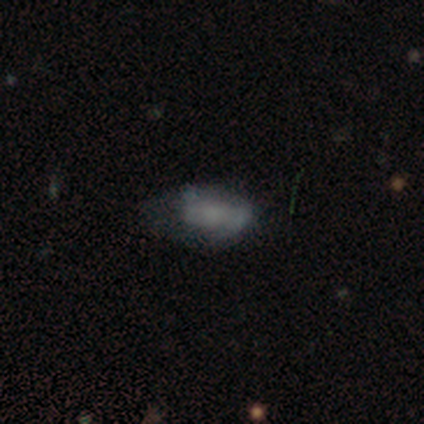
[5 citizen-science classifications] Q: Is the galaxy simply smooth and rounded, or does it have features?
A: smooth — 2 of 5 (40%, tied with featured or disk).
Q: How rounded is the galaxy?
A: in between — 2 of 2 (100%).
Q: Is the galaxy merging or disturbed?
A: none — 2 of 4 (50%).